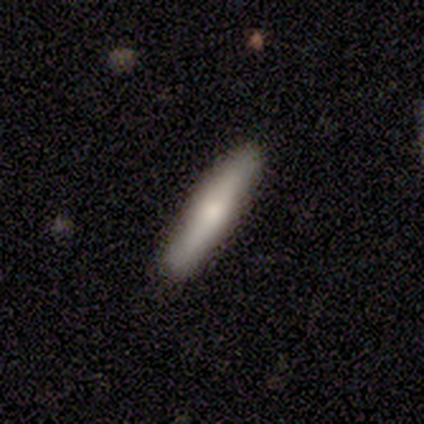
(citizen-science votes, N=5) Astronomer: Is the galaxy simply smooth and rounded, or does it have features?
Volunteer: smooth — 60% (runner-up: featured or disk, 40%).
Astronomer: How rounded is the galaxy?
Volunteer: cigar-shaped — 67%.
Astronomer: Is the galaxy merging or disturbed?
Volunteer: none — 80%.